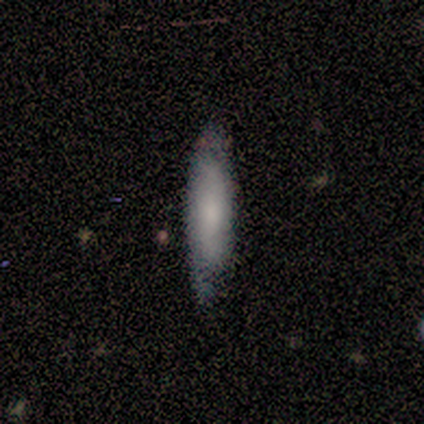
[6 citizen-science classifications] This is likely a smooth galaxy (67%). How rounded: possibly in between (50%, tied with cigar-shaped). Merging: clearly none (83%).